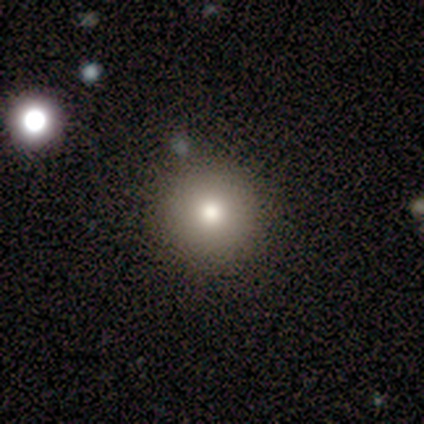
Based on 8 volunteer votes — A smooth galaxy with no disk features (75%) that is round (100%). Merging: none (86%).